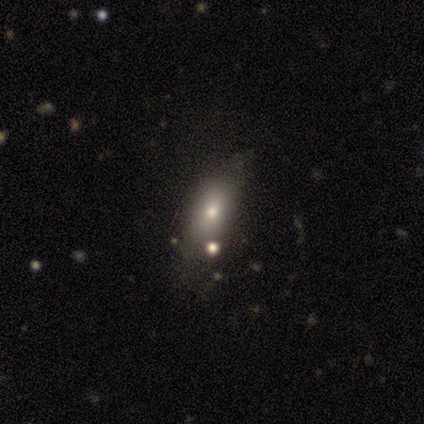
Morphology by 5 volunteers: smooth 60%, featured or disk 40%, star or artifact 0%. Down the decision tree: how rounded — round (67%); merging — none (80%).